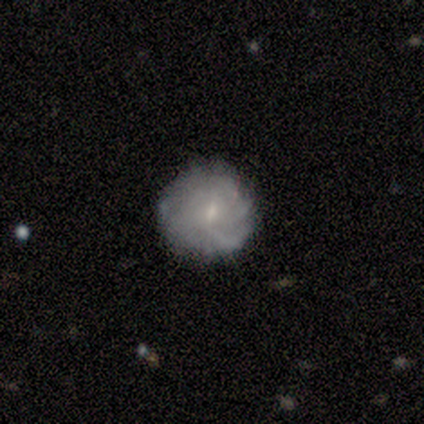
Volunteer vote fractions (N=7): Smooth or featured?
  - smooth: 57% *
  - featured or disk: 29%
  - star or artifact: 14%
How rounded?
  - round: 100% *
  - in between: 0%
  - cigar-shaped: 0%
Merging?
  - none: 83% *
  - minor disturbance: 17%
  - major disturbance: 0%
  - merger: 0%